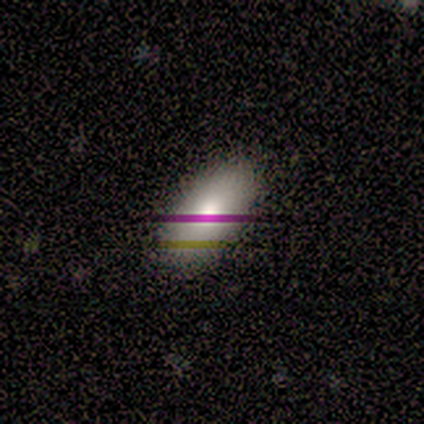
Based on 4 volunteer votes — Smooth or featured?
  - smooth: 75% *
  - featured or disk: 25%
  - star or artifact: 0%
How rounded?
  - in between: 67% *
  - cigar-shaped: 33%
  - round: 0%
Merging?
  - none: 75% *
  - minor disturbance: 25%
  - major disturbance: 0%
  - merger: 0%